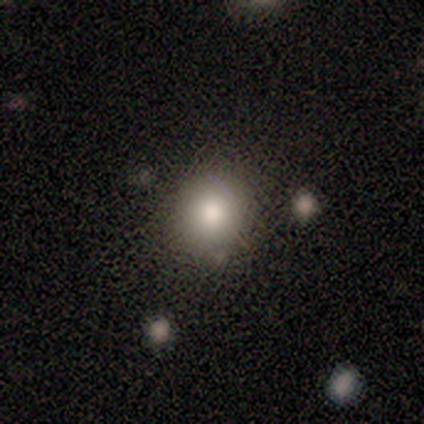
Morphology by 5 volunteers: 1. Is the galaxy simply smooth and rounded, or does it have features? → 80% smooth, 20% star or artifact, 0% featured or disk.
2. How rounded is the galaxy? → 100% round, 0% in between, 0% cigar-shaped.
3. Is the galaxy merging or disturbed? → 100% none, 0% minor disturbance, 0% major disturbance, 0% merger.